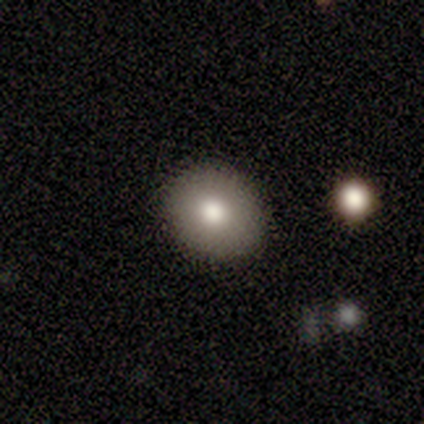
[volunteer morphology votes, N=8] Volunteers were most divided on "how rounded": round: 50%, in between: 33%, cigar-shaped: 17%. More confident: smooth or featured — smooth (75%); merging — none (71%).